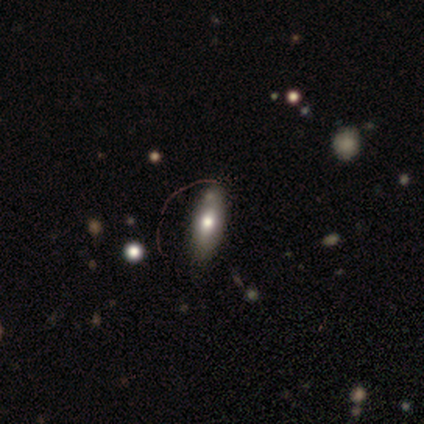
Q: Smooth or featured?
A: smooth (75%); runner-up: featured or disk (25%)
Q: How rounded?
A: in between (67%); runner-up: cigar-shaped (33%)
Q: Merging?
A: none (75%); runner-up: minor disturbance (25%)